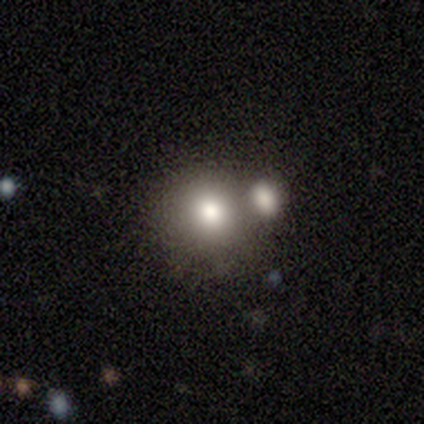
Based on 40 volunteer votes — Smooth or featured: smooth — 80% (featured or disk — 10%)
How rounded: round — 84% (in between — 16%)
Merging: merger — 47% (none — 44%)